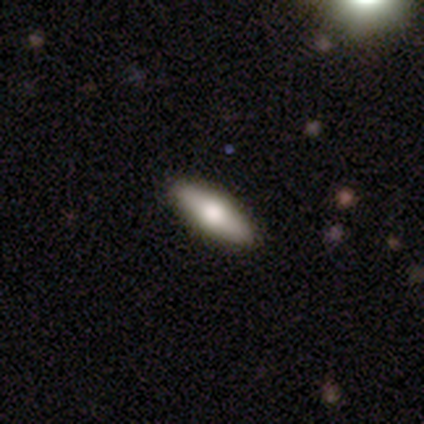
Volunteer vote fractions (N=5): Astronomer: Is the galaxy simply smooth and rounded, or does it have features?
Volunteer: featured or disk — 60% (runner-up: smooth, 40%).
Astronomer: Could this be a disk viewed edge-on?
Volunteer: yes — 100%.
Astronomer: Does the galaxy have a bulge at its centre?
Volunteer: rounded — 100%.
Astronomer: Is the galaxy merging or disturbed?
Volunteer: none — 100%.